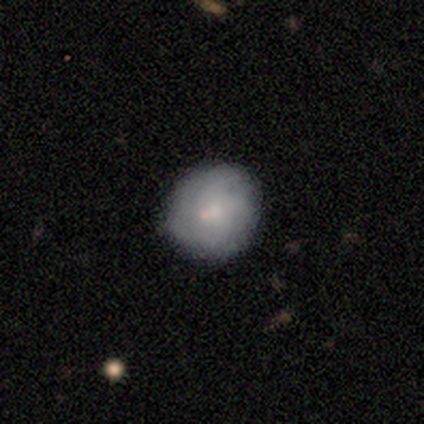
smooth 66%, featured or disk 29%, star or artifact 5%. Down the decision tree: how rounded — round (81%); merging — none (74%).